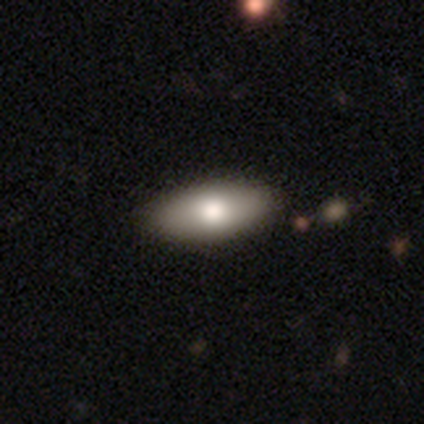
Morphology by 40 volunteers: A smooth galaxy with no disk features (82%) that is in between round and cigar-shaped (85%). Merging: none (68%).